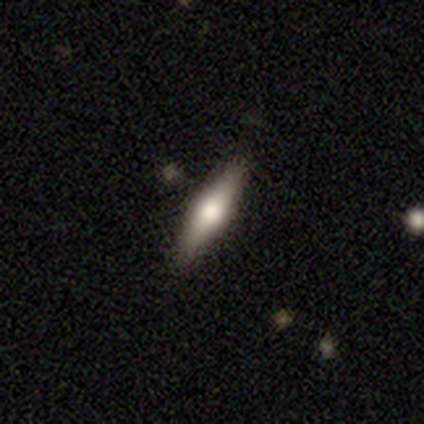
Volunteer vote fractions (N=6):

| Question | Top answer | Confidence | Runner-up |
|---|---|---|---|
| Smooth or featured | smooth | 50% | tied: featured or disk (50%) |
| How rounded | cigar-shaped | 67% | in between (33%) |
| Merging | none | 100% | — |